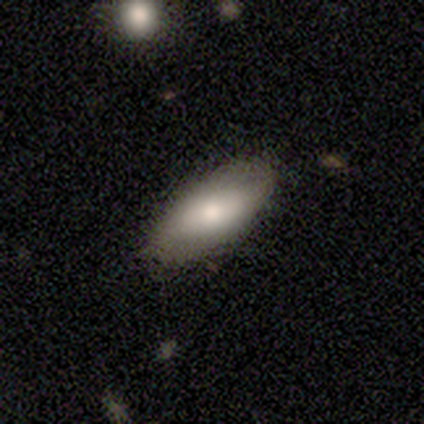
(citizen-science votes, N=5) A smooth galaxy with no disk features (100%) that is in between round and cigar-shaped (100%).

Vote fractions:
- Smooth or featured? smooth: 100% / featured or disk: 0% / star or artifact: 0%
- How rounded? in between: 100% / round: 0% / cigar-shaped: 0%
- Merging? none: 100% / minor disturbance: 0% / major disturbance: 0% / merger: 0%